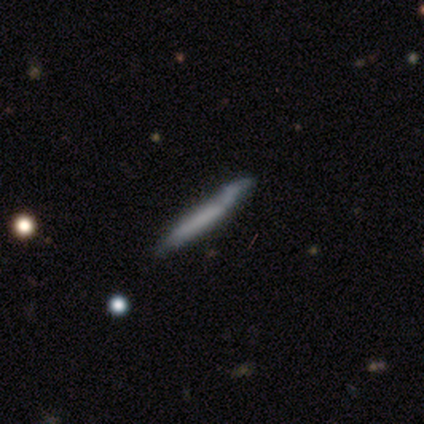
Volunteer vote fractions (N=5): Overall: featured or disk (60%; smooth 40%). Edge-on disk: yes (100%). Edge-on bulge: none (100%). Merging: none (80%).